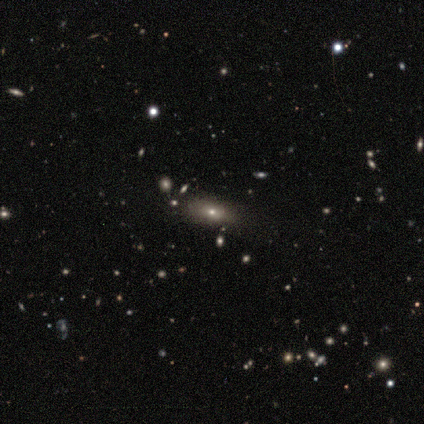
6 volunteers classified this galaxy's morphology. Volunteers were most divided on "smooth or featured": star or artifact: 50%, featured or disk: 33%, smooth: 17%.